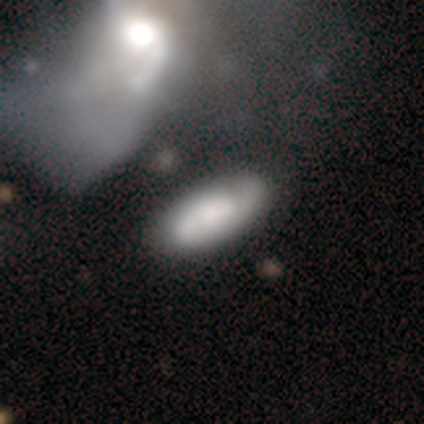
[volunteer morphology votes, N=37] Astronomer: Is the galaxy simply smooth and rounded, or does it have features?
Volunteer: featured or disk — 54% (runner-up: smooth, 46%).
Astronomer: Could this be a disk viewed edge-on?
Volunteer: no — 90%.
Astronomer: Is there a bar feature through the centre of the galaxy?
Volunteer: no — 78%.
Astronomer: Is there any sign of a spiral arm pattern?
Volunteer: yes — 78%.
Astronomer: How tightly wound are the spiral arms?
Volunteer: tight — 50% (runner-up: loose, 36%).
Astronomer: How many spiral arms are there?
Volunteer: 2 — 50% (runner-up: can't tell, 29%).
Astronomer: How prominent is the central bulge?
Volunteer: moderate — 44% (runner-up: small, 22%).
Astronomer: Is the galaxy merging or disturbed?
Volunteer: none — 38% (runner-up: major disturbance, 32%).